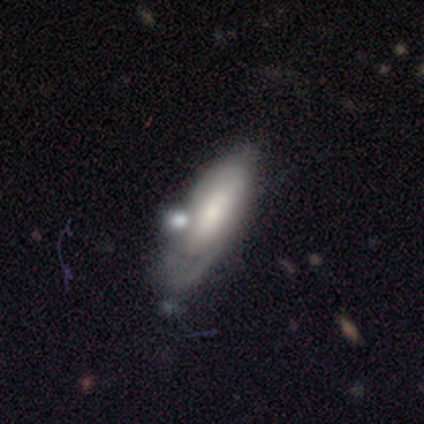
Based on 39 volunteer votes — A featured or disk galaxy (54%) with a weak bar (44%), tight (55%) spiral arms (69%) and a moderate central bulge (38%).

Vote fractions:
- Smooth or featured? featured or disk: 54% / smooth: 44% / star or artifact: 3%
- Edge-on disk? no: 76% / yes: 24%
- Bar? weak: 44% / no: 38% / strong: 19%
- Spiral arms? yes: 69% / no: 31%
- Spiral winding? tight: 55% / medium: 27% / loose: 18%
- Spiral arm count? can't tell: 64% / 1: 27% / 2: 9% / 3: 0% / 4: 0% / more than 4: 0%
- Bulge size? moderate: 38% / small: 31% / large: 25% / dominant: 6% / none: 0%
- Merging? none: 39% / minor disturbance: 29% / major disturbance: 16% / merger: 16%